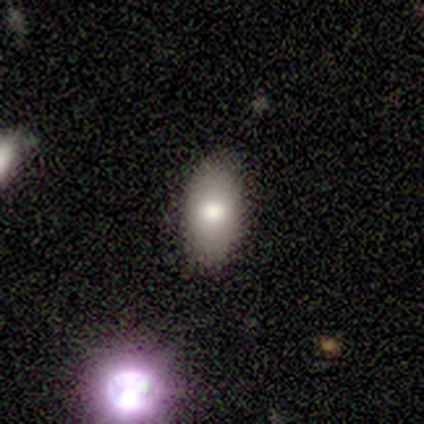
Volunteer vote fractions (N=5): Smooth or featured? smooth (80%)
How rounded? in between (100%)
Merging? none (60%)